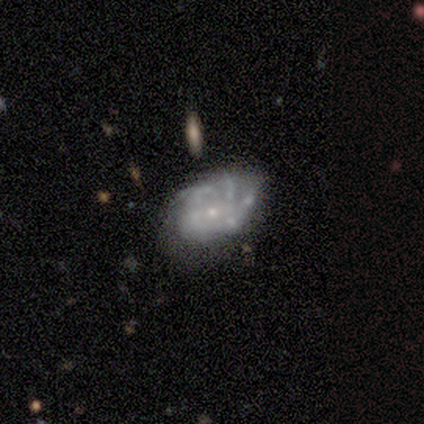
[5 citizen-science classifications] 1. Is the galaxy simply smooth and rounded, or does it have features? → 80% featured or disk, 20% star or artifact, 0% smooth.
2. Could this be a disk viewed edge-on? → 100% no, 0% yes.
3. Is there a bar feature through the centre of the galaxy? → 50% weak (tied), 50% no (tied), 0% strong.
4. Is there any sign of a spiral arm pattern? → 100% yes, 0% no.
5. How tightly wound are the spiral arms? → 75% tight, 25% medium, 0% loose.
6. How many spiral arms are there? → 100% can't tell, 0% 1, 0% 2, 0% 3, 0% 4, 0% more than 4.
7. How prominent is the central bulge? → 100% small, 0% dominant, 0% large, 0% moderate, 0% none.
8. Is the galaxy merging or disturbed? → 50% none (tied), 50% minor disturbance (tied), 0% major disturbance, 0% merger.